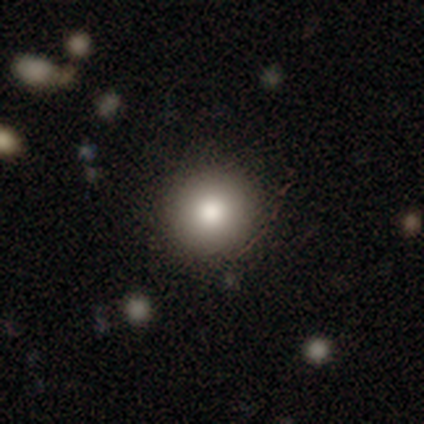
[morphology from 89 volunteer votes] A smooth galaxy with no disk features (79%) that is round (90%). Merging: none (94%).